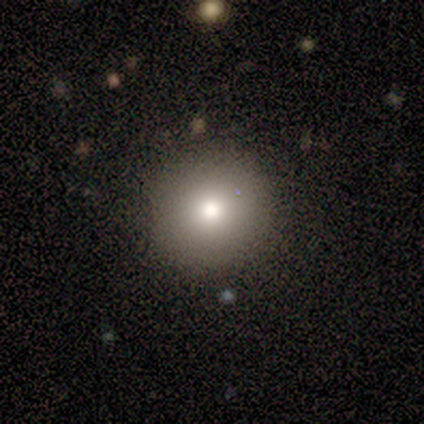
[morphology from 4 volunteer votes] Smooth or featured: smooth — 75% (star or artifact — 25%)
How rounded: round — 100%
Merging: none — 100%